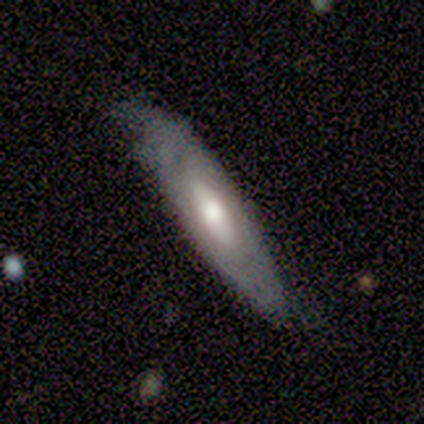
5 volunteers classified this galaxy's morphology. Q: Smooth or featured?
A: smooth (60%); runner-up: featured or disk (40%)
Q: How rounded?
A: cigar-shaped (67%); runner-up: in between (33%)
Q: Merging?
A: none (80%); runner-up: minor disturbance (20%)